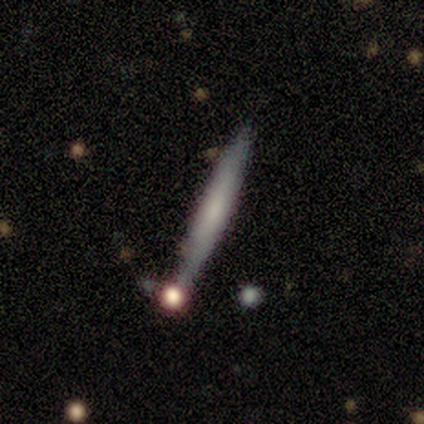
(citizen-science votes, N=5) This appears to be a smooth galaxy with no disk features (40%, tied with featured or disk) that is cigar-shaped (100%). Merging: none (50%, tied with minor disturbance).